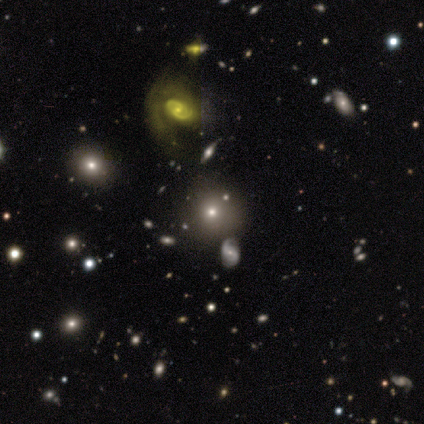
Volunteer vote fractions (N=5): A star or artifact, not a galaxy (60%).

Vote fractions:
- Smooth or featured? star or artifact: 60% / smooth: 20% / featured or disk: 20%